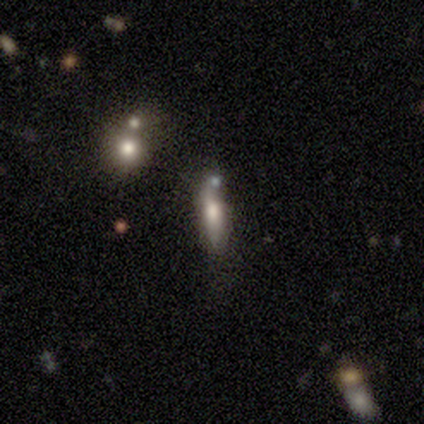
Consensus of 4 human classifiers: Smooth or featured? smooth (100%)
How rounded? cigar-shaped (75%)
Merging? none (75%)